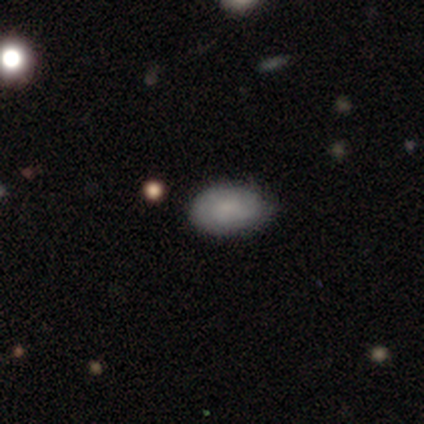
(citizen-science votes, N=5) This is clearly a smooth galaxy (80%). How rounded: clearly in between (100%). Merging: clearly none (80%).